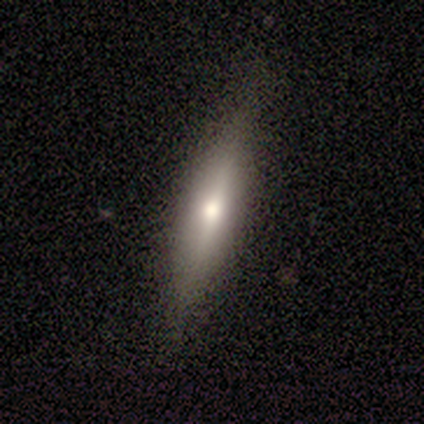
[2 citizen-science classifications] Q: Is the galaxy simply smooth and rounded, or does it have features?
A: featured or disk — 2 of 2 (100%).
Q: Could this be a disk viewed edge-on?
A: yes — 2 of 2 (100%).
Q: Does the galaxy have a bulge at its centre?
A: rounded — 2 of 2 (100%).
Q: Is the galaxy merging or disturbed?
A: none — 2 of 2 (100%).